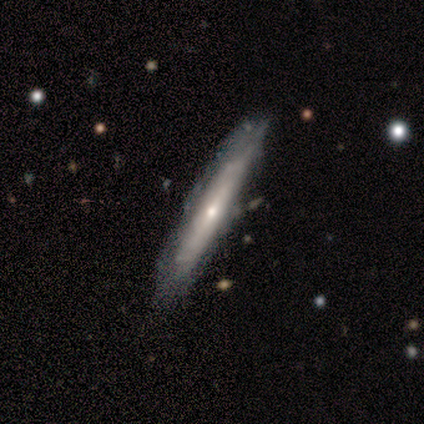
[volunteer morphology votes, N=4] A featured or disk galaxy (75%) viewed edge-on (67%) with no central bulge (50%, tied with rounded).

Vote fractions:
- Smooth or featured? featured or disk: 75% / smooth: 25% / star or artifact: 0%
- Edge-on disk? yes: 67% / no: 33%
- Edge-on bulge? none: 50% (tied) / rounded: 50% (tied) / boxy: 0%
- Merging? none: 100% / minor disturbance: 0% / major disturbance: 0% / merger: 0%